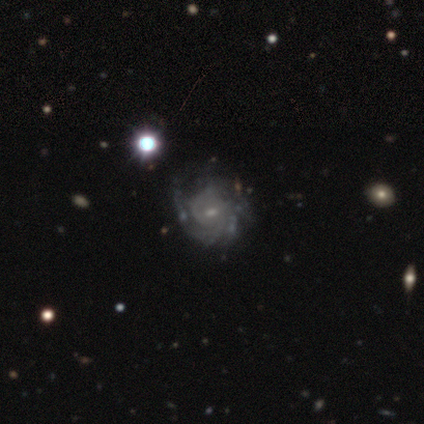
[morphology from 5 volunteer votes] This is clearly a featured or disk galaxy (80%). It is clearly not viewed edge-on (100%). Bar: likely no (75%). Spiral arm pattern: clearly yes (100%). Spiral arm count: likely can't tell (75%). Spiral winding: likely tight (75%). Central bulge: likely small (75%). Merging: likely none (60%).